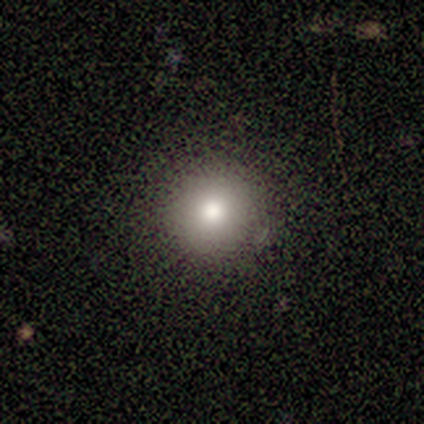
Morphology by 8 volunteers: Smooth or featured?
  - smooth: 75% *
  - featured or disk: 12%
  - star or artifact: 12%
How rounded?
  - round: 100% *
  - in between: 0%
  - cigar-shaped: 0%
Merging?
  - none: 86% *
  - minor disturbance: 14%
  - major disturbance: 0%
  - merger: 0%